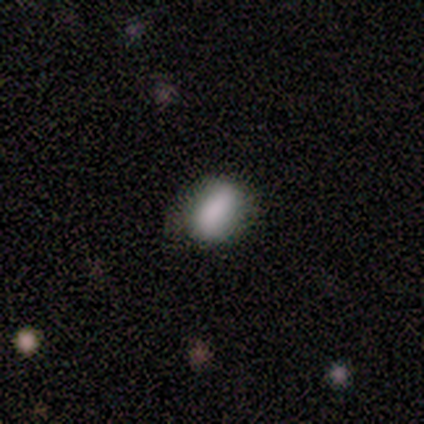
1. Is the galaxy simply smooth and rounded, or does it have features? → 62% smooth, 38% featured or disk, 0% star or artifact.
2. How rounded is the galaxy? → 80% in between, 20% round, 0% cigar-shaped.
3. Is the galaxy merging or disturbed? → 50% none, 38% minor disturbance, 12% major disturbance, 0% merger.